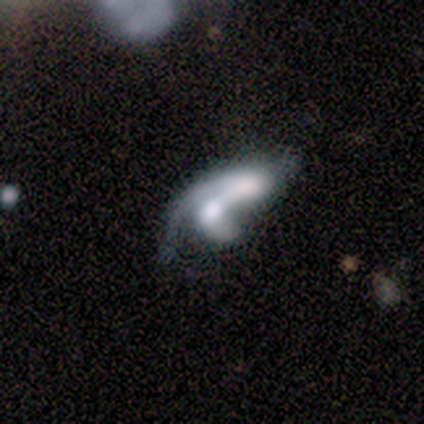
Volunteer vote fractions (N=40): Q: Smooth or featured?
A: featured or disk (70%); runner-up: smooth (25%)
Q: Edge-on disk?
A: no (96%); runner-up: yes (4%)
Q: Bar?
A: no (67%); runner-up: weak (22%)
Q: Spiral arms?
A: yes (56%); runner-up: no (44%)
Q: Spiral winding?
A: loose (67%); runner-up: medium (27%)
Q: Spiral arm count?
A: 1 (40%); runner-up: 2 (33%)
Q: Bulge size?
A: moderate (41%); runner-up: none (22%)
Q: Merging?
A: merger (71%); runner-up: none (13%)